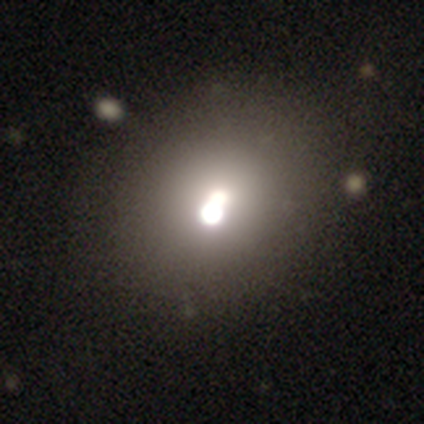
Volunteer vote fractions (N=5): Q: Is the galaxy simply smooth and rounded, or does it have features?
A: smooth — 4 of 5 (80%).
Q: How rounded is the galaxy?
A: round — 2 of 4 (50%, tied with in between).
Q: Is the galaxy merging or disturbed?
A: minor disturbance — 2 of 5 (40%).